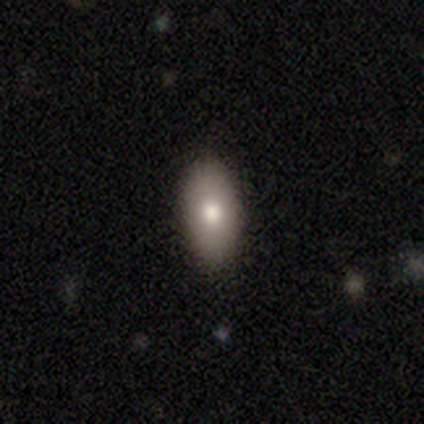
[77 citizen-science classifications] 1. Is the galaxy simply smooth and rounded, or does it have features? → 84% smooth, 9% featured or disk, 6% star or artifact.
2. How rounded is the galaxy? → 92% in between, 8% cigar-shaped, 0% round.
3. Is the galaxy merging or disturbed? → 43% none, 7% minor disturbance, 1% major disturbance, 1% merger.